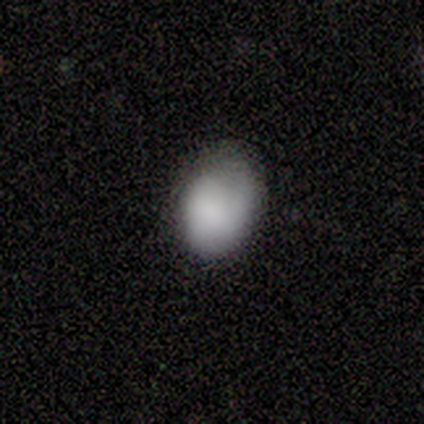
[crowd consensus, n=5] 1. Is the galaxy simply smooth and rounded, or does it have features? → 100% smooth, 0% featured or disk, 0% star or artifact.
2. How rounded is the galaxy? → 60% round, 40% in between, 0% cigar-shaped.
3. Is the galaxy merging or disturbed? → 80% minor disturbance, 20% none, 0% major disturbance, 0% merger.